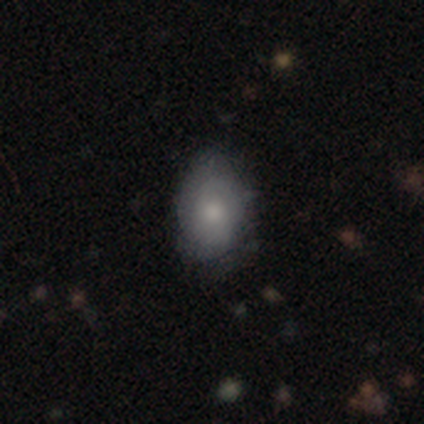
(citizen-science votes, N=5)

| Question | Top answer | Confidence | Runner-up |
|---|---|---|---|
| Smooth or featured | smooth | 60% | featured or disk (40%) |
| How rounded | in between | 67% | round (33%) |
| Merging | minor disturbance | 80% | none (20%) |